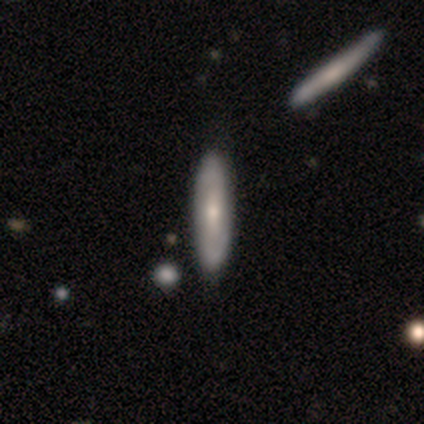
Smooth or featured?
  - smooth: 60% *
  - featured or disk: 40%
  - star or artifact: 0%
How rounded?
  - in between: 67% *
  - cigar-shaped: 33%
  - round: 0%
Merging?
  - none: 100% *
  - minor disturbance: 0%
  - major disturbance: 0%
  - merger: 0%